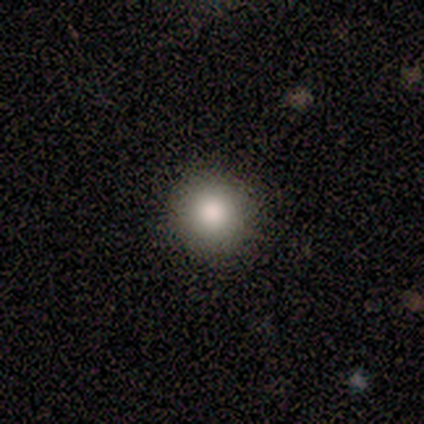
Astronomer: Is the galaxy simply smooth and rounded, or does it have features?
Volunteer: smooth — 60%.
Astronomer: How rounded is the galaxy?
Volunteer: round — 100%.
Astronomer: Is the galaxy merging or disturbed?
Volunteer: none — 100%.